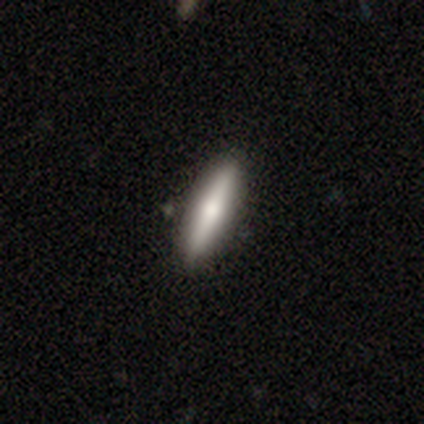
Morphology: type=featured or disk (60%); edge-on=yes (100%); edge-on bulge=rounded (100%); merging=none (100%).